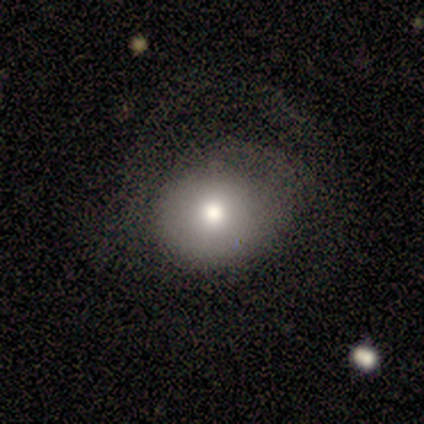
A smooth galaxy with no disk features (80%) that is round (75%).

Vote fractions:
- Smooth or featured? smooth: 80% / star or artifact: 20% / featured or disk: 0%
- How rounded? round: 75% / in between: 25% / cigar-shaped: 0%
- Merging? none: 75% / major disturbance: 25% / minor disturbance: 0% / merger: 0%